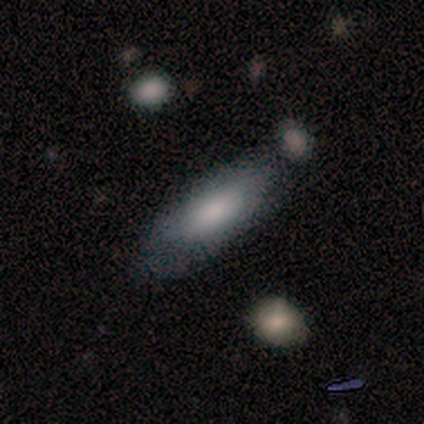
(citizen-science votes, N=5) smooth_or_featured: smooth (p=1.00)
how_rounded: in between (p=0.80) [alt: cigar-shaped p=0.20]
merging: none (p=0.60) [alt: minor disturbance p=0.20]